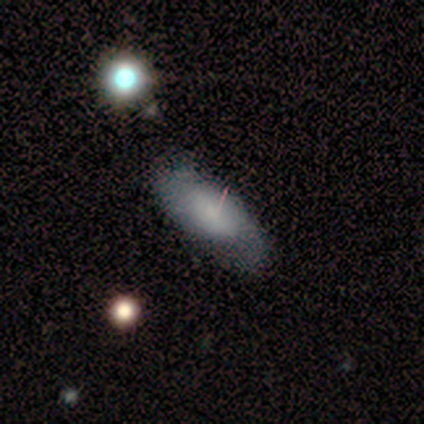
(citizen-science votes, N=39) Q: Smooth or featured?
A: smooth (56%); runner-up: featured or disk (38%)
Q: How rounded?
A: in between (77%); runner-up: cigar-shaped (18%)
Q: Merging?
A: none (73%); runner-up: minor disturbance (22%)